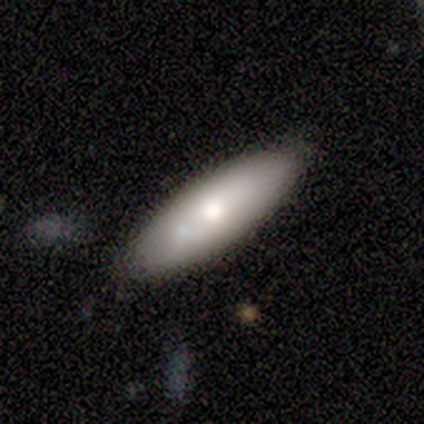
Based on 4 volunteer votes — A smooth galaxy with no disk features (75%) that is in between round and cigar-shaped (67%).

Vote fractions:
- Smooth or featured? smooth: 75% / featured or disk: 25% / star or artifact: 0%
- How rounded? in between: 67% / cigar-shaped: 33% / round: 0%
- Merging? none: 75% / minor disturbance: 25% / major disturbance: 0% / merger: 0%